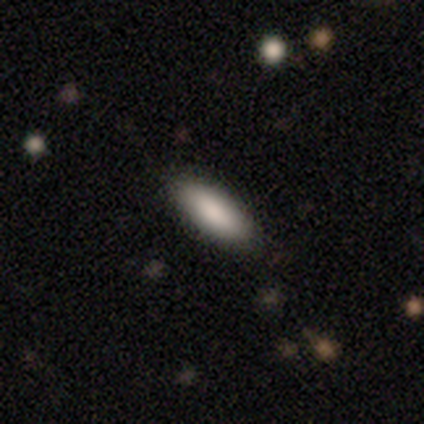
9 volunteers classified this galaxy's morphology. A smooth galaxy with no disk features (89%) that is in between round and cigar-shaped (50%, tied with cigar-shaped).

Vote fractions:
- Smooth or featured? smooth: 89% / star or artifact: 11% / featured or disk: 0%
- How rounded? in between: 50% (tied) / cigar-shaped: 50% (tied) / round: 0%
- Merging? none: 100% / minor disturbance: 0% / major disturbance: 0% / merger: 0%